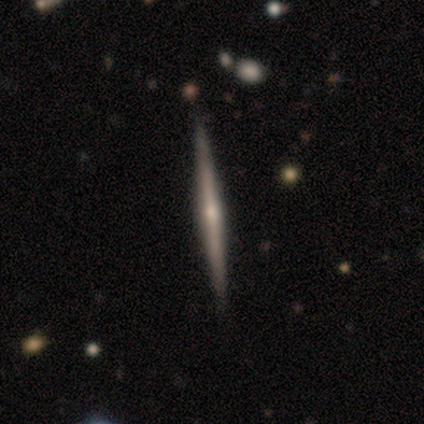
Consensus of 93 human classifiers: A featured or disk galaxy (76%) viewed edge-on (96%) with a rounded central bulge (68%). Merging: none (93%).